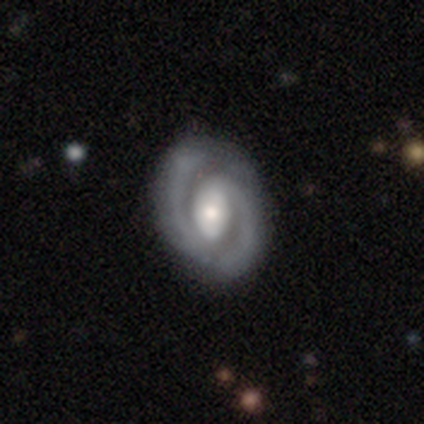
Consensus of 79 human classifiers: Smooth or featured?
  - featured or disk: 91% *
  - smooth: 8%
  - star or artifact: 1%
Edge-on disk?
  - no: 96% *
  - yes: 4%
Bar?
  - weak: 39% *
  - strong: 33%
  - no: 28%
Spiral arms?
  - yes: 97% *
  - no: 3%
Spiral winding?
  - tight: 52% *
  - medium: 39%
  - loose: 9%
Spiral arm count?
  - 2: 91% *
  - 1: 7%
  - can't tell: 1%
  - 3: 0%
  - 4: 0%
  - more than 4: 0%
Bulge size?
  - moderate: 55% *
  - large: 29%
  - small: 16%
  - dominant: 0%
  - none: 0%
Merging?
  - none: 38% *
  - minor disturbance: 9%
  - major disturbance: 3%
  - merger: 0%